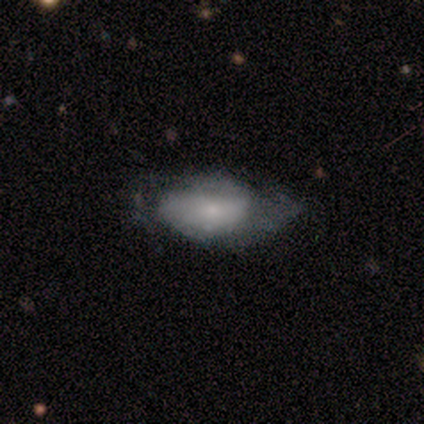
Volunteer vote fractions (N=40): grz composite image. It shows a smooth galaxy with no disk features (52%) that is in between round and cigar-shaped (95%). Merging: none (51%).